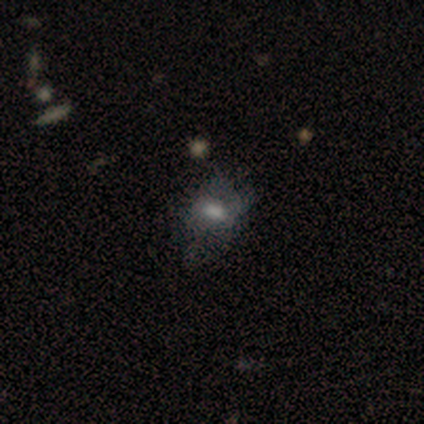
This is clearly a smooth galaxy (80%). How rounded: likely round (75%). Merging: likely none (60%).